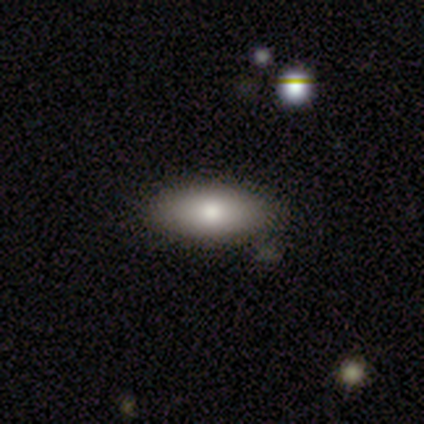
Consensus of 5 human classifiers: Smooth or featured? 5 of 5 (100%) said smooth. How rounded? 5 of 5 (100%) said in between. Merging? 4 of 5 (80%) said none.